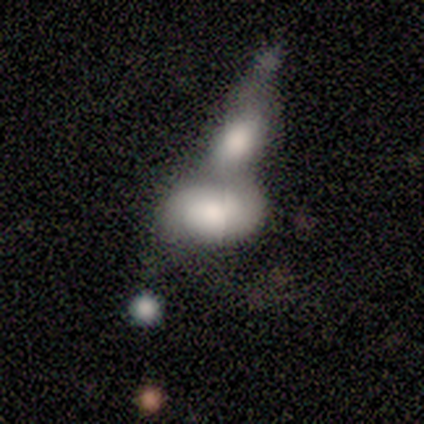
Volunteers were most divided on "how rounded": in between: 67%, round: 33%, cigar-shaped: 0%. More confident: merging — merger (100%); smooth or featured — smooth (60%).